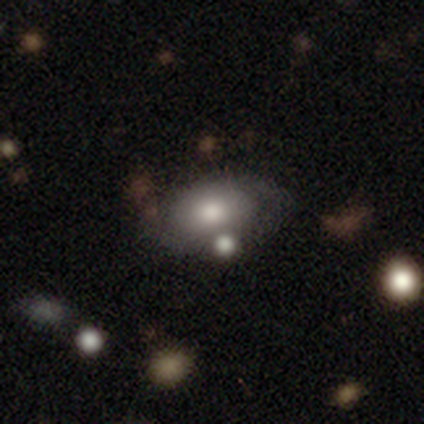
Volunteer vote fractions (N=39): Morphology: type=smooth (54%); roundness=in between (81%); merging=none (36%).